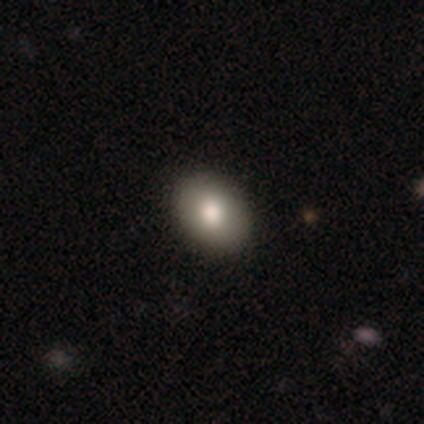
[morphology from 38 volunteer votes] Smooth or featured: smooth — 79% (star or artifact — 18%)
How rounded: in between — 77% (round — 20%)
Merging: none — 94% (minor disturbance — 3%)